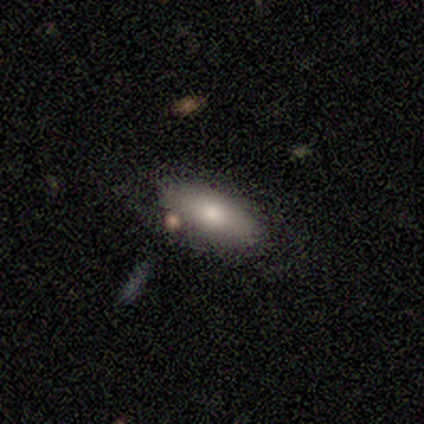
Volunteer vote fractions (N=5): This appears to be a smooth galaxy with no disk features (80%) that is in between round and cigar-shaped (100%). Merging: none (40%, tied with minor disturbance).